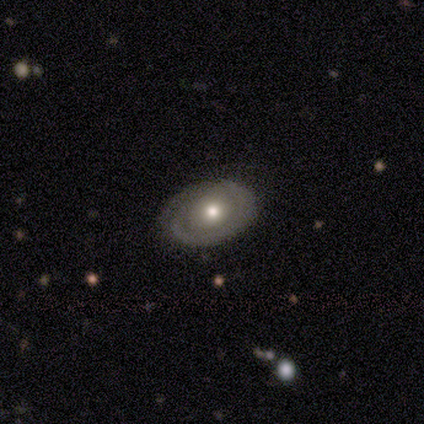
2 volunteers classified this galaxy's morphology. This appears to be a featured or disk galaxy (100%) viewed edge-on (50%, tied with no) with a rounded central bulge (100%). Merging: none (100%).